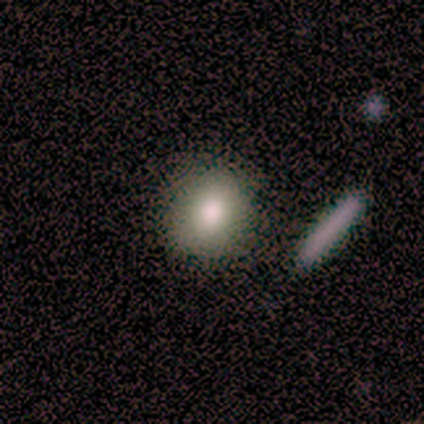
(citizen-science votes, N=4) Morphology: type=smooth (100%); roundness=round (75%); merging=none (50%).